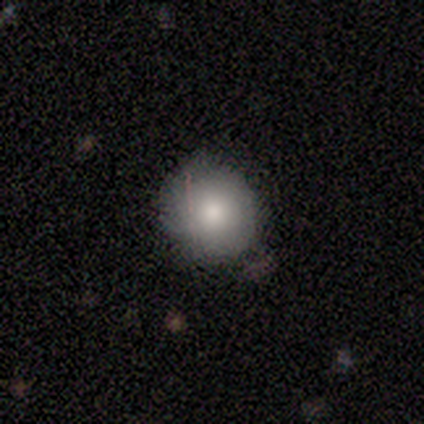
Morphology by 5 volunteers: Overall: smooth (60%; featured or disk 40%). How rounded: round (100%). Merging: minor disturbance (80%).